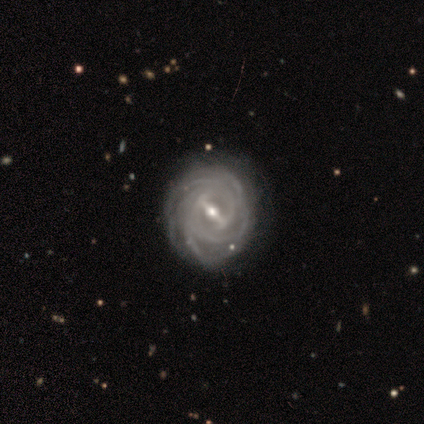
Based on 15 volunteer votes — A featured or disk galaxy (93%) with a strong bar (93%), 4 (36%, tied with more than 4) tight (93%) spiral arms (100%) and a moderate central bulge (57%).

Vote fractions:
- Smooth or featured? featured or disk: 93% / star or artifact: 7% / smooth: 0%
- Edge-on disk? no: 100% / yes: 0%
- Bar? strong: 93% / weak: 7% / no: 0%
- Spiral arms? yes: 100% / no: 0%
- Spiral winding? tight: 93% / medium: 7% / loose: 0%
- Spiral arm count? 4: 36% (tied) / more than 4: 36% (tied) / can't tell: 14% / 2: 7% / 3: 7% / 1: 0%
- Bulge size? moderate: 57% / small: 43% / dominant: 0% / large: 0% / none: 0%
- Merging? none: 71% / minor disturbance: 21% / major disturbance: 7% / merger: 0%